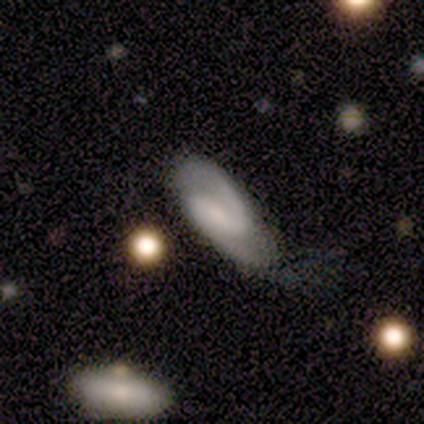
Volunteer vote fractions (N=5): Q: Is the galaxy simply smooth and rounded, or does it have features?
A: featured or disk — 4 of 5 (80%).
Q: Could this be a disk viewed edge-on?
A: no — 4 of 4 (100%).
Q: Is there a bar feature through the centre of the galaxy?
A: no — 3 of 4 (75%).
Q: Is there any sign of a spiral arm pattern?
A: yes — 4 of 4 (100%).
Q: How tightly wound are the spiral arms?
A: tight — 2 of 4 (50%, tied with medium).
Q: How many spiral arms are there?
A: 2 — 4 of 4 (100%).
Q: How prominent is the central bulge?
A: small — 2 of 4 (50%, tied with none).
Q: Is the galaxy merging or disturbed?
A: none — 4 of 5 (80%).